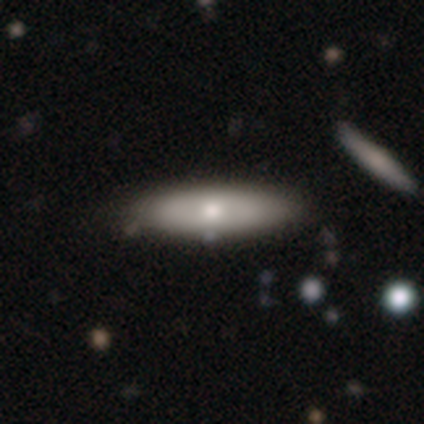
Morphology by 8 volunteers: type=featured or disk (62%); edge-on=no (60%); bar=no (100%); spiral arms=no (100%); bulge=moderate (100%); merging=none (100%).